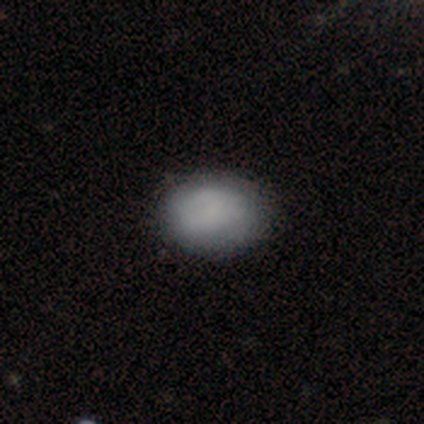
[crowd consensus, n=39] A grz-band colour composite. It shows a smooth galaxy with no disk features (82%) that is in between round and cigar-shaped (69%). Merging: none (42%).